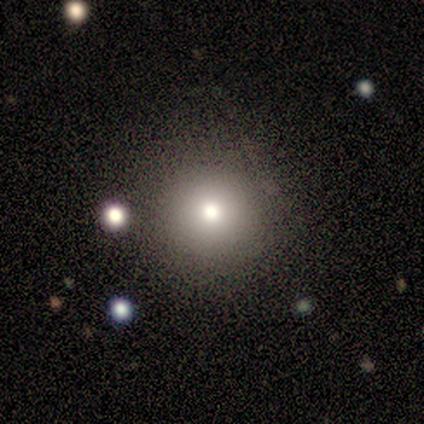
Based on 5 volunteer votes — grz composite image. It shows a smooth galaxy with no disk features (40%, tied with featured or disk) that is round (100%). Merging: none (75%).